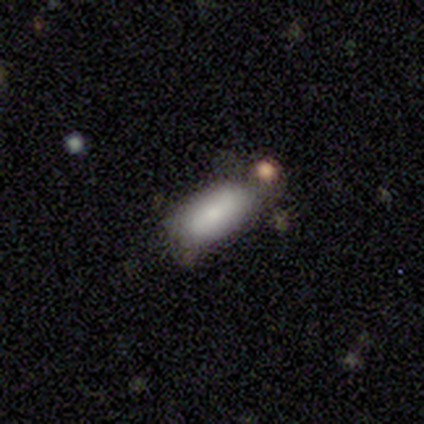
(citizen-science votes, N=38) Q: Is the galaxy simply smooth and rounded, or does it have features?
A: smooth — 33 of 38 (87%).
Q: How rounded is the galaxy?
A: in between — 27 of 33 (82%).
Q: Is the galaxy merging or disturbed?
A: none — 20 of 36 (56%).